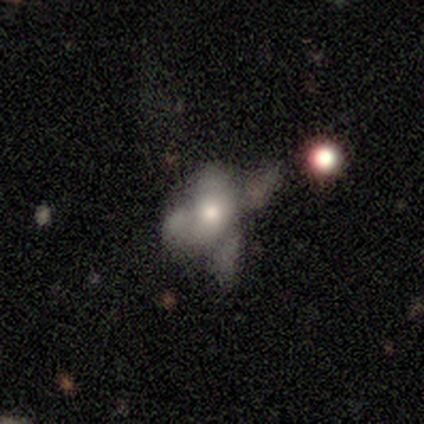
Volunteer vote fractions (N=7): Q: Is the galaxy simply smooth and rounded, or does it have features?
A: smooth — 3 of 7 (43%).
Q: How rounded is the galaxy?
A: in between — 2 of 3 (67%).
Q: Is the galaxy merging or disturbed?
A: merger — 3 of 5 (60%).